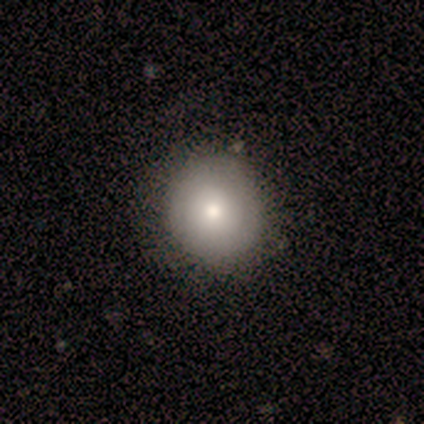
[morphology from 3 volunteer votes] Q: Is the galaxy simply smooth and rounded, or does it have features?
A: smooth — 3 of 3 (100%).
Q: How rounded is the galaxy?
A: round — 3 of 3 (100%).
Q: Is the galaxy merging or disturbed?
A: none — 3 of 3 (100%).